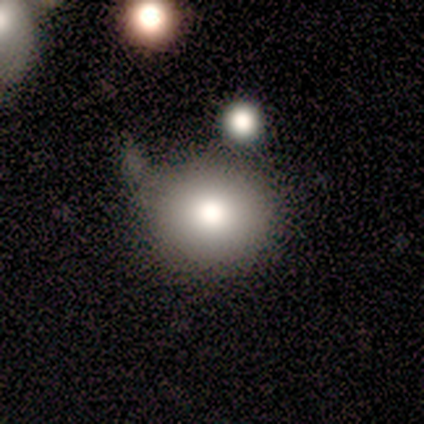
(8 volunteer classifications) Q: Smooth or featured?
A: smooth (75%); runner-up: featured or disk (25%)
Q: How rounded?
A: round (83%); runner-up: in between (17%)
Q: Merging?
A: none (75%); runner-up: minor disturbance (25%)